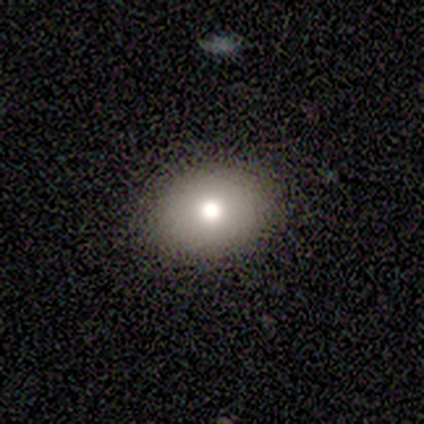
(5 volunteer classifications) A smooth galaxy with no disk features (100%) that is in between round and cigar-shaped (60%).

Vote fractions:
- Smooth or featured? smooth: 100% / featured or disk: 0% / star or artifact: 0%
- How rounded? in between: 60% / round: 40% / cigar-shaped: 0%
- Merging? none: 80% / minor disturbance: 20% / major disturbance: 0% / merger: 0%